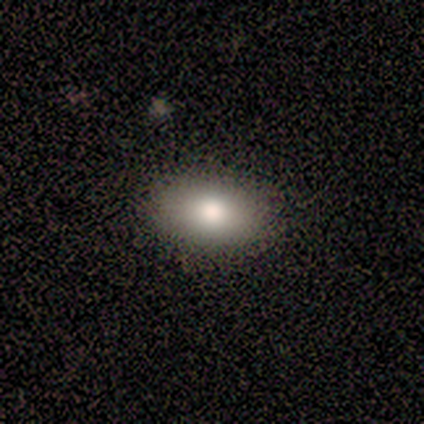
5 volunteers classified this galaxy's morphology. Volunteers were most divided on "smooth or featured": smooth: 80%, featured or disk: 20%, star or artifact: 0%. More confident: how rounded — in between (100%); merging — none (100%).